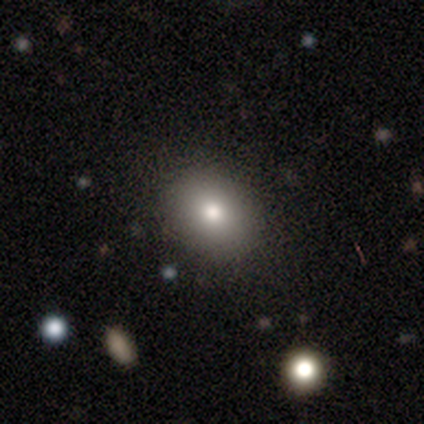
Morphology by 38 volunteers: Volunteers were most divided on "how rounded": round: 53%, in between: 47%, cigar-shaped: 0%. More confident: merging — none (91%); smooth or featured — smooth (79%).